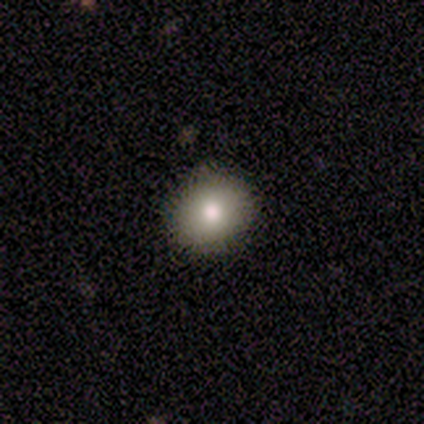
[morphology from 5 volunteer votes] This appears to be a smooth galaxy with no disk features (80%) that is round (75%). Merging: none (100%).